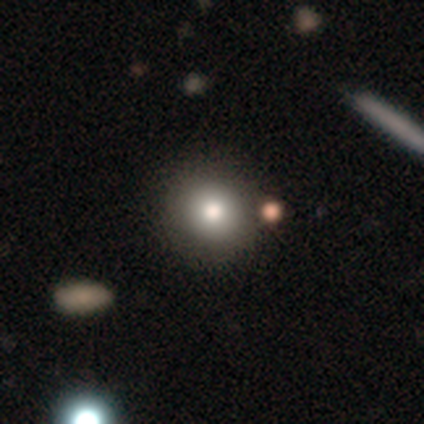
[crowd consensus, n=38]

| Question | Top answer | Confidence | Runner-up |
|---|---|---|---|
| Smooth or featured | smooth | 82% | featured or disk (13%) |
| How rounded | round | 90% | in between (10%) |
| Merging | none | 69% | merger (14%) |